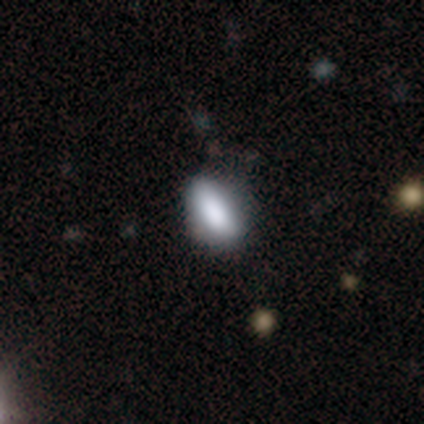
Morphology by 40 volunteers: Smooth or featured: smooth — 80% (featured or disk — 18%)
How rounded: in between — 91% (cigar-shaped — 9%)
Merging: none — 62% (minor disturbance — 15%)